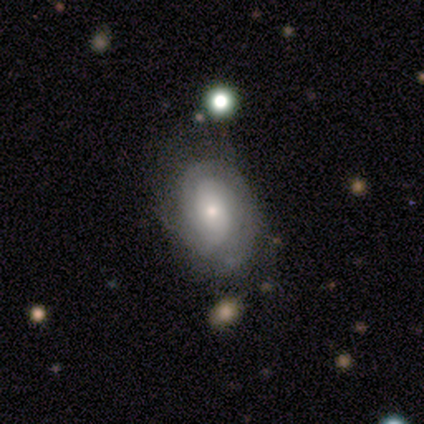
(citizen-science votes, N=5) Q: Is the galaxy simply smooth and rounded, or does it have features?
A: featured or disk — 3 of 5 (60%).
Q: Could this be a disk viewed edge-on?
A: no — 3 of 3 (100%).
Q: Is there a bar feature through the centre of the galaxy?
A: no — 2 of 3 (67%).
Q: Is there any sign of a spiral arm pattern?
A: yes — 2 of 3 (67%).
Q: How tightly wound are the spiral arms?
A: tight — 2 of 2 (100%).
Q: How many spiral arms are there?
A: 2 — 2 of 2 (100%).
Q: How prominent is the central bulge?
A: small — 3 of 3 (100%).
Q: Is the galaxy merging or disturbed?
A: none — 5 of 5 (100%).